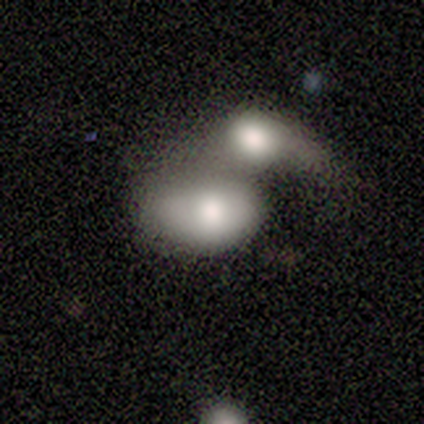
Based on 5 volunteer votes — A smooth galaxy with no disk features (80%) that is in between round and cigar-shaped (75%). Merging: merger (100%).